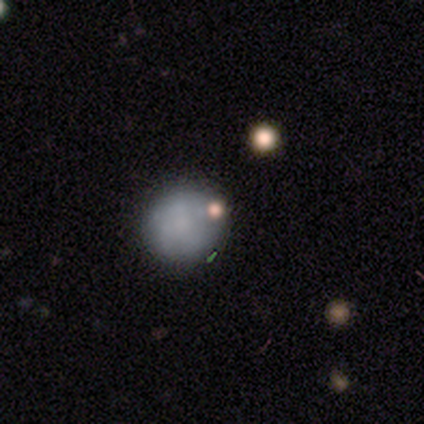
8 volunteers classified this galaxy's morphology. Smooth or featured: smooth — 75% (featured or disk — 12%)
How rounded: round — 100%
Merging: none — 86% (major disturbance — 14%)